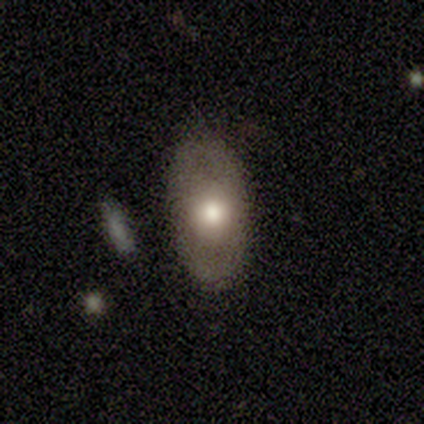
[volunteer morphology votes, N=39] smooth 64%, featured or disk 28%, star or artifact 8%. Down the decision tree: how rounded — in between (96%); merging — none (69%).